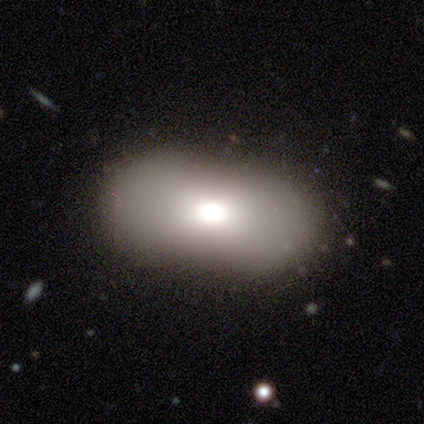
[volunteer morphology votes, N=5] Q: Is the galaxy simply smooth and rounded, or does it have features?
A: smooth — 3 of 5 (60%).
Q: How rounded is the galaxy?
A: in between — 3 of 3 (100%).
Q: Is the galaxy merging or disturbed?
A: none — 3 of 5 (60%).